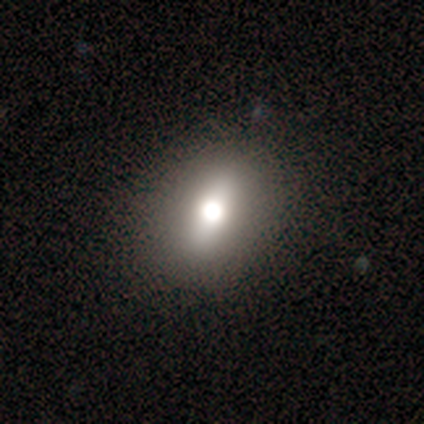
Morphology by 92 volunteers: smooth 61%, star or artifact 21%, featured or disk 18%. Down the decision tree: how rounded — in between (46%); merging — none (78%).